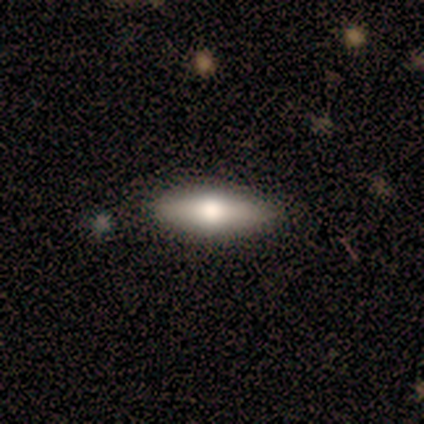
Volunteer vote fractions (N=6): Q: Smooth or featured?
A: smooth (50%); runner-up: featured or disk (33%)
Q: How rounded?
A: in between (67%); runner-up: cigar-shaped (33%)
Q: Merging?
A: none (100%)